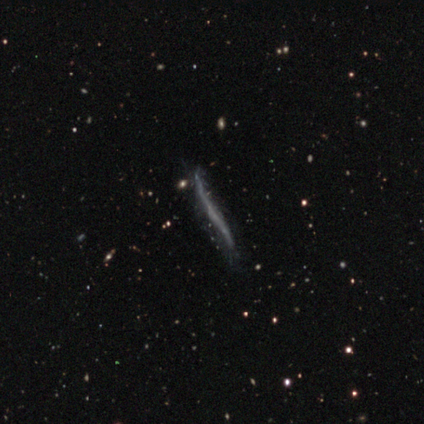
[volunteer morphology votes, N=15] A featured or disk galaxy (53%) viewed edge-on (75%) with no central bulge (100%).

Vote fractions:
- Smooth or featured? featured or disk: 53% / smooth: 33% / star or artifact: 13%
- Edge-on disk? yes: 75% / no: 25%
- Edge-on bulge? none: 100% / boxy: 0% / rounded: 0%
- Merging? none: 77% / minor disturbance: 15% / major disturbance: 8% / merger: 0%